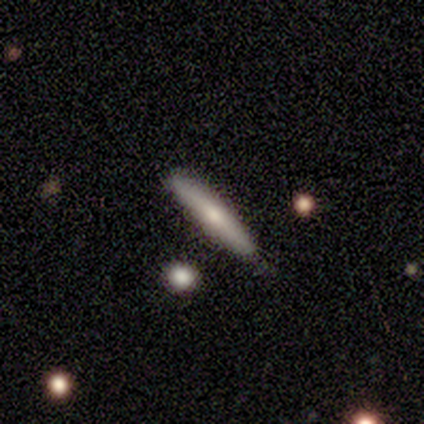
A featured or disk galaxy (40%, tied with star or artifact) viewed edge-on (100%) with a rounded central bulge (100%).

Vote fractions:
- Smooth or featured? featured or disk: 40% (tied) / star or artifact: 40% (tied) / smooth: 20%
- Edge-on disk? yes: 100% / no: 0%
- Edge-on bulge? rounded: 100% / boxy: 0% / none: 0%
- Merging? none: 100% / minor disturbance: 0% / major disturbance: 0% / merger: 0%